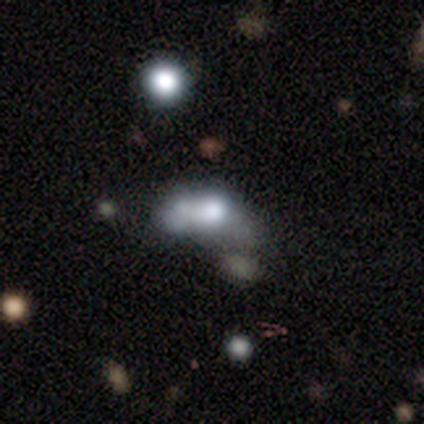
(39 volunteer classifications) Smooth or featured? smooth (44%)
How rounded? in between (76%)
Merging? merger (45%)